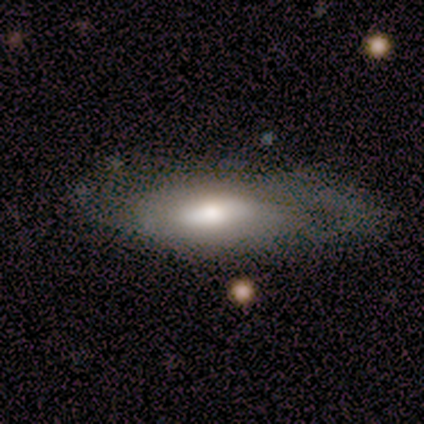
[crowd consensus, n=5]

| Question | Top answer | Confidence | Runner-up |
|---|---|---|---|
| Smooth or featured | smooth | 60% | featured or disk (40%) |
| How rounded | in between | 100% | — |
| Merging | major disturbance | 60% | minor disturbance (40%) |